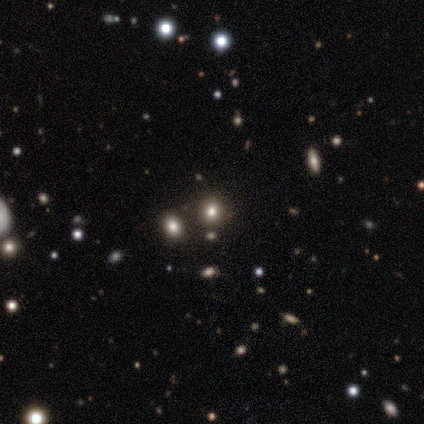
Smooth or featured: smooth — 60% (featured or disk — 40%)
How rounded: round — 100%
Merging: none — 60% (minor disturbance — 40%)